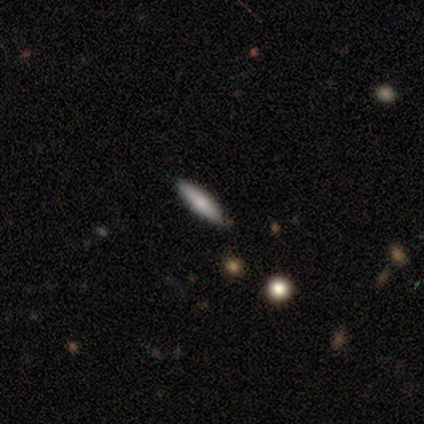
Q: Smooth or featured?
A: smooth (77%); runner-up: featured or disk (21%)
Q: How rounded?
A: cigar-shaped (70%); runner-up: in between (27%)
Q: Merging?
A: none (92%); runner-up: merger (5%)